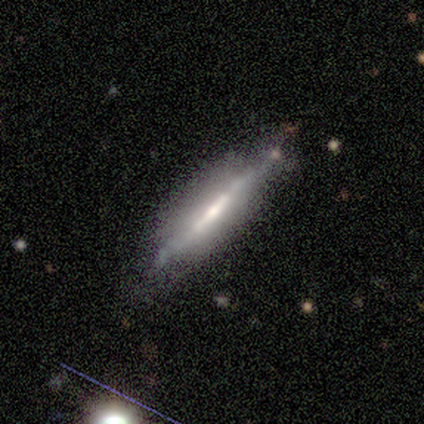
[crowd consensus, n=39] smooth-or-featured: featured or disk: 79% | smooth: 21% | star or artifact: 0%
  disk-edge-on: yes: 100% | no: 0%
    edge-on-bulge: none: 45% | rounded: 29% | boxy: 26%
  merging: none: 67% | minor disturbance: 28% | major disturbance: 5% | merger: 0%